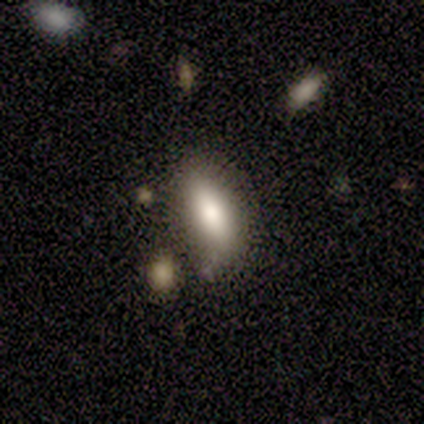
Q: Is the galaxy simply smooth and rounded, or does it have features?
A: smooth — 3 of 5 (60%).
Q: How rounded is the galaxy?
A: in between — 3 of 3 (100%).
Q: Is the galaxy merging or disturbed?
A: none — 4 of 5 (80%).